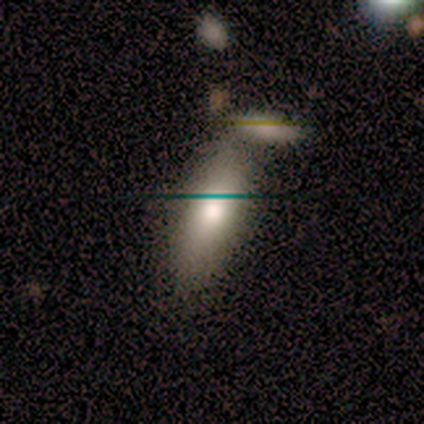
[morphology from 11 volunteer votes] Q: Smooth or featured?
A: smooth (64%); runner-up: featured or disk (27%)
Q: How rounded?
A: cigar-shaped (57%); runner-up: in between (43%)
Q: Merging?
A: merger (50%); runner-up: none (40%)